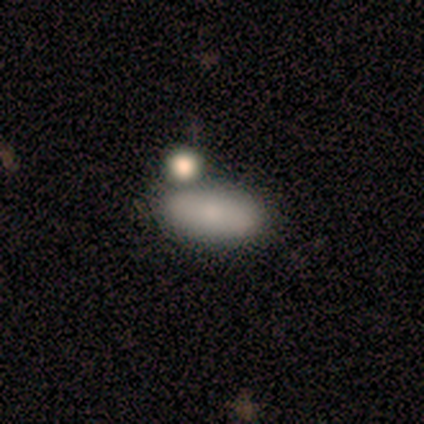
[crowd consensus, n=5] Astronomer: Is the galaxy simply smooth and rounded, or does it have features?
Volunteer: smooth — 80%.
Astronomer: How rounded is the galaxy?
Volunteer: in between — 100%.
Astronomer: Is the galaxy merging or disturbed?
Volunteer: merger — 60% (runner-up: none, 40%).